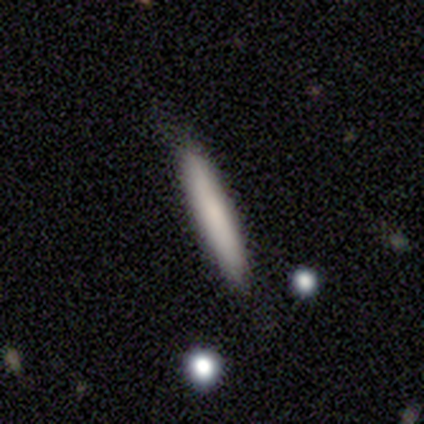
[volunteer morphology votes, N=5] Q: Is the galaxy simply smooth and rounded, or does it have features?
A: smooth — 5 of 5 (100%).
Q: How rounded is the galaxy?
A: cigar-shaped — 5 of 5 (100%).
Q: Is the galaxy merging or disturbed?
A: none — 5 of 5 (100%).